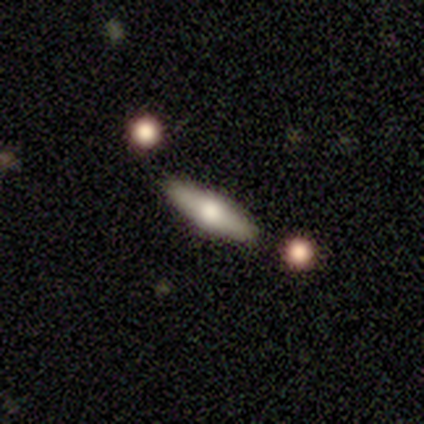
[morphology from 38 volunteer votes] Q: Smooth or featured?
A: smooth (50%); runner-up: featured or disk (47%)
Q: How rounded?
A: in between (53%); runner-up: cigar-shaped (47%)
Q: Merging?
A: none (89%); runner-up: minor disturbance (5%)